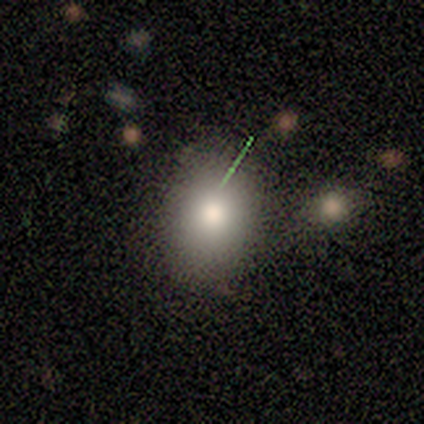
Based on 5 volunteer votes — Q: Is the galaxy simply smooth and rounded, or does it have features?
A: smooth — 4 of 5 (80%).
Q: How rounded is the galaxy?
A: in between — 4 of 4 (100%).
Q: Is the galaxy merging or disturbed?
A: none — 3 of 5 (60%).